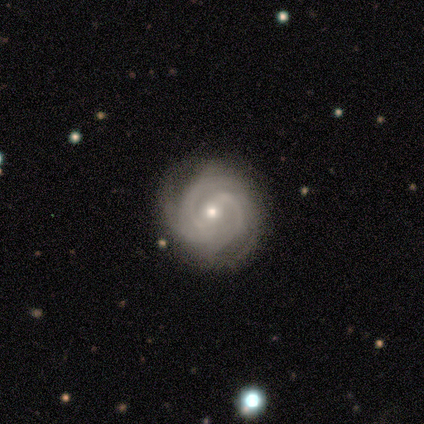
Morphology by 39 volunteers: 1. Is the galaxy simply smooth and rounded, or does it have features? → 95% featured or disk, 5% smooth, 0% star or artifact.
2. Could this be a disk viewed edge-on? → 100% no, 0% yes.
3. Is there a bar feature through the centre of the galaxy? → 49% no, 38% weak, 14% strong.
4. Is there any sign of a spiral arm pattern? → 100% yes, 0% no.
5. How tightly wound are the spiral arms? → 68% tight, 30% medium, 3% loose.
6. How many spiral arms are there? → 41% 2, 24% 3, 16% 4, 16% can't tell, 3% more than 4, 0% 1.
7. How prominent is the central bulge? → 51% small, 43% moderate, 3% large, 3% none, 0% dominant.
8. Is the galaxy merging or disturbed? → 74% none, 10% minor disturbance, 3% major disturbance, 3% merger.